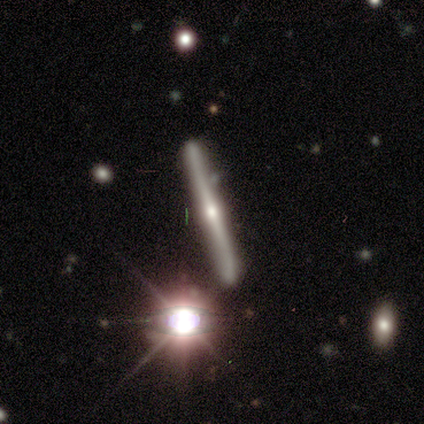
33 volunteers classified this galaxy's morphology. Overall: featured or disk (82%). Edge-on disk: yes (96%). Edge-on bulge: rounded (92%). Merging: none (67%).